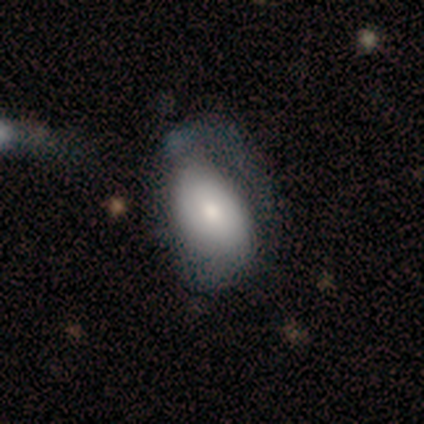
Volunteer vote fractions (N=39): Smooth or featured? 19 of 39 (49%) said smooth. How rounded? 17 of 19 (89%) said in between. Merging? 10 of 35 (29%) said major disturbance.